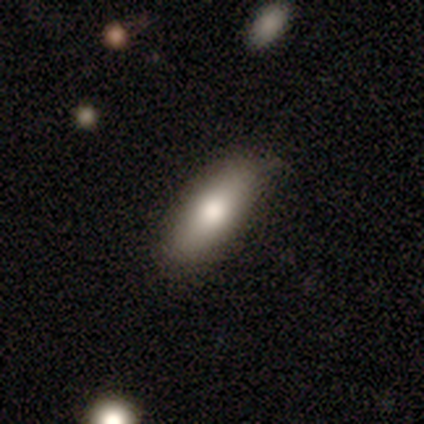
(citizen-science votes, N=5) A smooth galaxy with no disk features (60%) that is in between round and cigar-shaped (100%).

Vote fractions:
- Smooth or featured? smooth: 60% / featured or disk: 20% / star or artifact: 20%
- How rounded? in between: 100% / round: 0% / cigar-shaped: 0%
- Merging? none: 100% / minor disturbance: 0% / major disturbance: 0% / merger: 0%